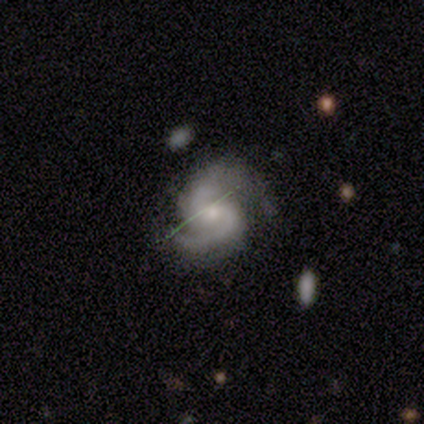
A featured or disk galaxy (100%) with a weak bar (75%), 2 (100%) medium (100%) spiral arms (100%) and a small central bulge (50%). Merging: none (50%).